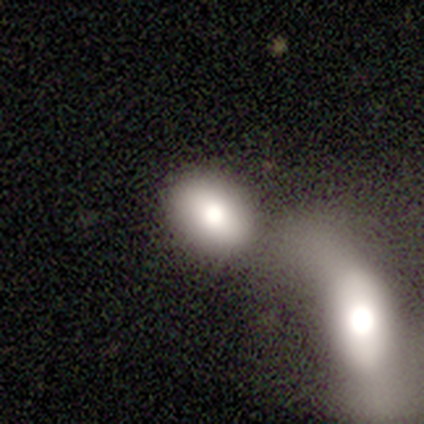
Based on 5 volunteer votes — Overall: smooth (100%). How rounded: round (40%, tied with in between). Merging: none (40%, tied with merger).